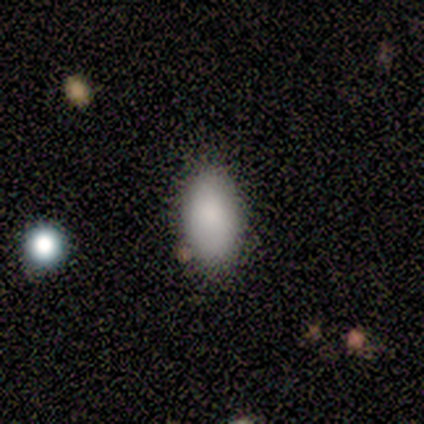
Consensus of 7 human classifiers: smooth 100%, featured or disk 0%, star or artifact 0%. Down the decision tree: how rounded — in between (100%); merging — none (100%).